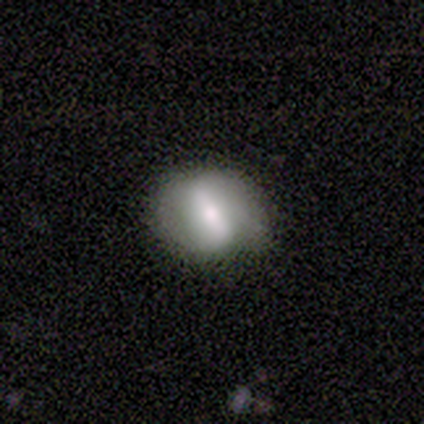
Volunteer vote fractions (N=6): Volunteers were most divided on "spiral arms": yes: 60%, no: 40%. More confident: edge-on disk — no (100%); merging — none (100%); smooth or featured — featured or disk (83%); bar — strong (80%); bulge size — moderate (80%); spiral winding — medium (67%); spiral arm count — 2 (67%).